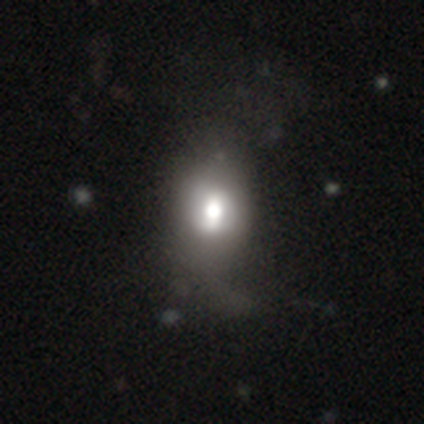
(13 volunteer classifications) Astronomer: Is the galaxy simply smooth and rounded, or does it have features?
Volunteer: smooth — 54% (runner-up: featured or disk, 38%).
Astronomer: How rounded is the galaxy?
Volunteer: in between — 57% (runner-up: round, 43%).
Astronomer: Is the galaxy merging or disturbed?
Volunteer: minor disturbance — 50% (runner-up: none, 42%).